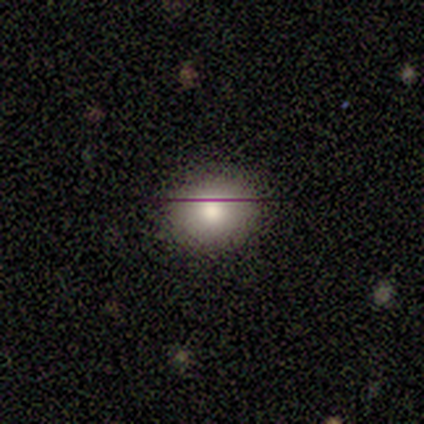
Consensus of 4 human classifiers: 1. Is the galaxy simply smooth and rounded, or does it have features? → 75% smooth, 25% featured or disk, 0% star or artifact.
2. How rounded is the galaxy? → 67% in between, 33% round, 0% cigar-shaped.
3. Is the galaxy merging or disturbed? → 100% none, 0% minor disturbance, 0% major disturbance, 0% merger.